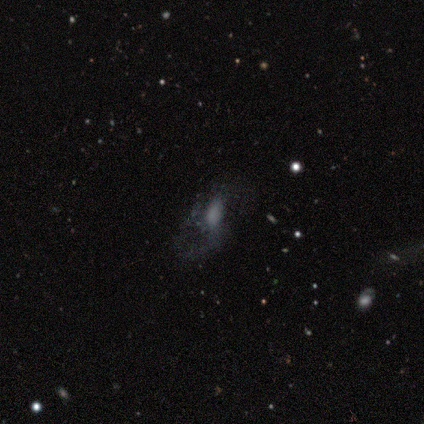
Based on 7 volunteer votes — A featured or disk galaxy (57%) with no bar (75%), 2 (50%, tied with more than 4) loose (100%) spiral arms (50%, tied with no) and no central bulge (50%). Merging: minor disturbance (40%).